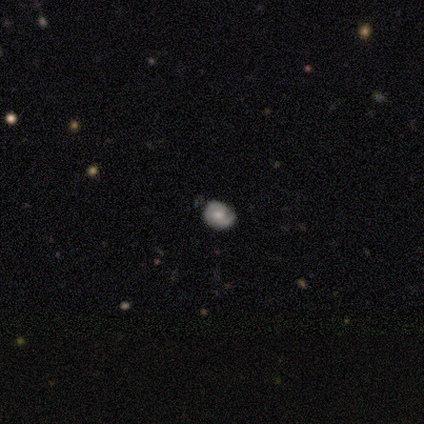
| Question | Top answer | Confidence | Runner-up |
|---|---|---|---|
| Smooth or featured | featured or disk | 50% | smooth (33%) |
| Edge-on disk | no | 100% | — |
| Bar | no | 100% | — |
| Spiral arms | yes | 100% | — |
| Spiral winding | tight | 67% | medium (33%) |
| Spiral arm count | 2 | 67% | can't tell (33%) |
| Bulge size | large | 33% | tied: moderate (33%), small (33%) |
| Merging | none | 80% | minor disturbance (20%) |